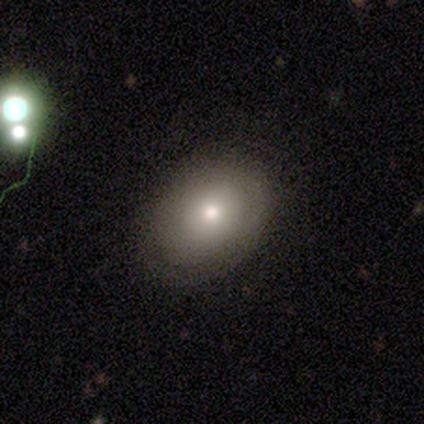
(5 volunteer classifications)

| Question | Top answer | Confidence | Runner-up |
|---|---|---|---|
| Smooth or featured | smooth | 40% | tied: featured or disk (40%) |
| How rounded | round | 50% | tied: in between (50%) |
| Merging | none | 100% | — |